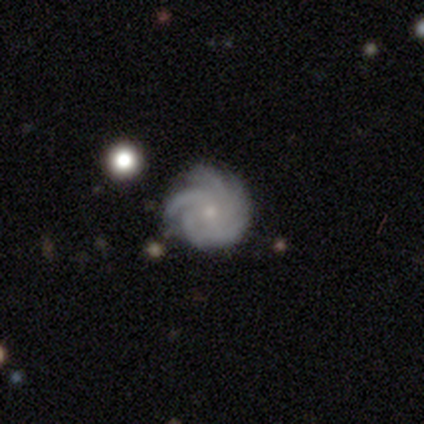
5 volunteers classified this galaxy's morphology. This appears to be a featured or disk galaxy (80%) with no bar (50%), 3 (50%) tight (50%, tied with medium) spiral arms (100%) and a moderate central bulge (75%). Merging: none (75%).